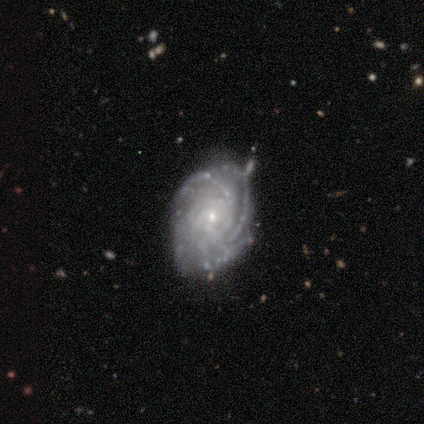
A featured or disk galaxy (100%) with no bar (70%), 4 (30%, tied with more than 4 and can't tell) tight (80%) spiral arms (100%) and a small central bulge (100%).

Vote fractions:
- Smooth or featured? featured or disk: 100% / smooth: 0% / star or artifact: 0%
- Edge-on disk? no: 91% / yes: 9%
- Bar? no: 70% / strong: 20% / weak: 10%
- Spiral arms? yes: 100% / no: 0%
- Spiral winding? tight: 80% / medium: 20% / loose: 0%
- Spiral arm count? 4: 30% (tied) / more than 4: 30% (tied) / can't tell: 30% (tied) / 3: 10% / 1: 0% / 2: 0%
- Bulge size? small: 100% / dominant: 0% / large: 0% / moderate: 0% / none: 0%
- Merging? none: 55% / minor disturbance: 27% / major disturbance: 9% / merger: 9%